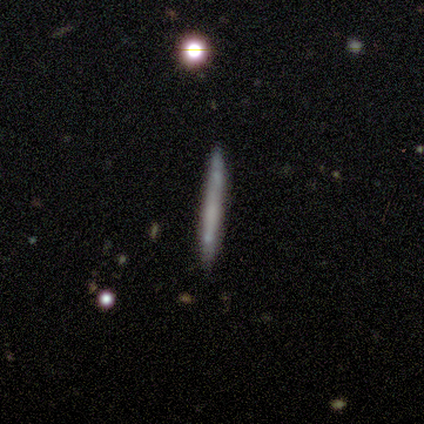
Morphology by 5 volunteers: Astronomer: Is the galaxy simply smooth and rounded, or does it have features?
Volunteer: smooth — 80%.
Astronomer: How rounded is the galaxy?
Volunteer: cigar-shaped — 100%.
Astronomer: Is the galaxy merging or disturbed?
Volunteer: none — 60% (runner-up: minor disturbance, 40%).